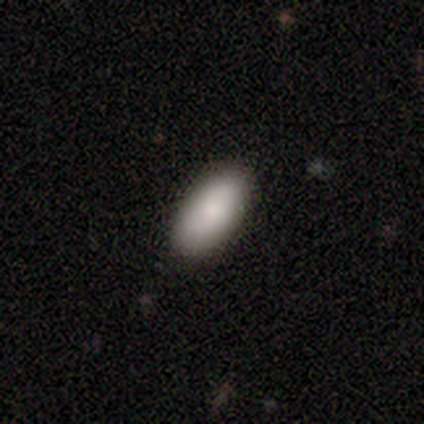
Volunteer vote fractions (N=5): Smooth or featured? smooth (80%)
How rounded? in between (100%)
Merging? none (100%)